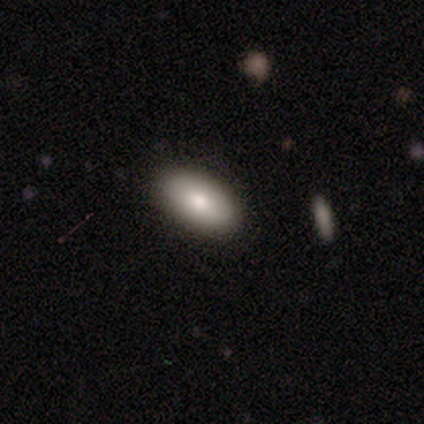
Q: Smooth or featured?
A: smooth (75%); runner-up: star or artifact (25%)
Q: How rounded?
A: in between (100%)
Q: Merging?
A: none (67%); runner-up: minor disturbance (33%)